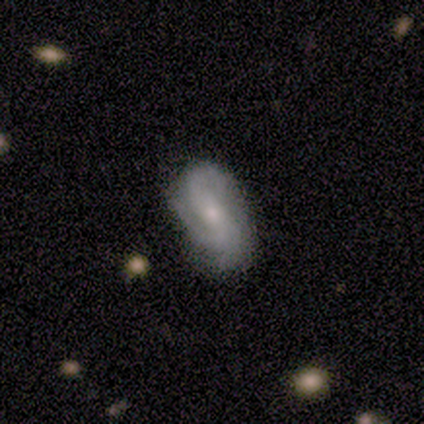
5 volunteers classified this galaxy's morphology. This appears to be a featured or disk galaxy (100%) with a strong bar (40%, tied with weak), 2 (40%, tied with 3) tight (40%, tied with medium) spiral arms (100%) and a moderate central bulge (40%, tied with none). Merging: none (80%).